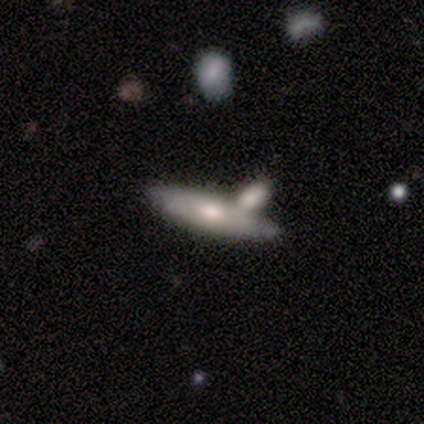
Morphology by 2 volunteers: Q: Smooth or featured?
A: smooth (100%)
Q: How rounded?
A: in between (50%); tied with: cigar-shaped (50%)
Q: Merging?
A: merger (100%)